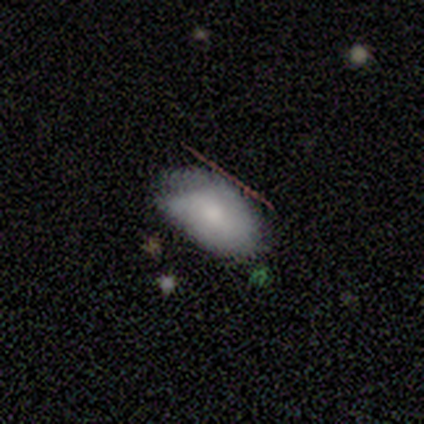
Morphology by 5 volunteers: This appears to be a smooth galaxy with no disk features (80%) that is in between round and cigar-shaped (100%). Merging: minor disturbance (60%).